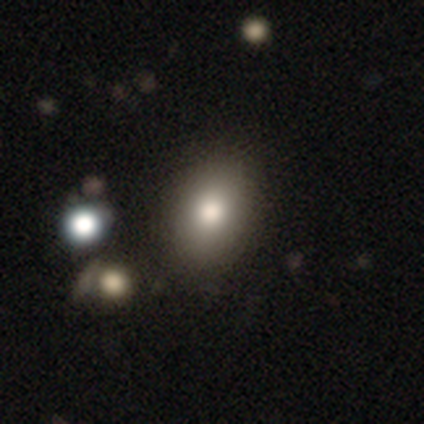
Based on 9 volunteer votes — Volunteers were most divided on "smooth or featured": smooth: 56%, featured or disk: 33%, star or artifact: 11%. More confident: merging — none (88%); how rounded — in between (80%).